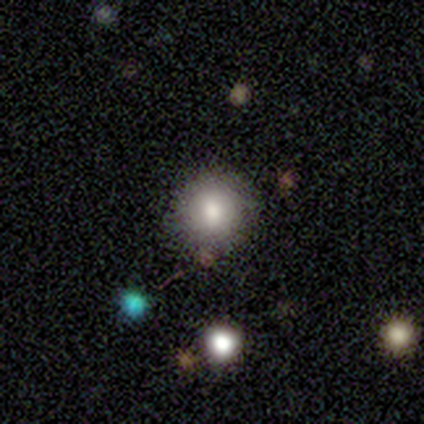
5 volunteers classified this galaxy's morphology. smooth_or_featured: smooth (p=0.80) [alt: featured or disk p=0.20]
how_rounded: round (p=1.00)
merging: none (p=1.00)